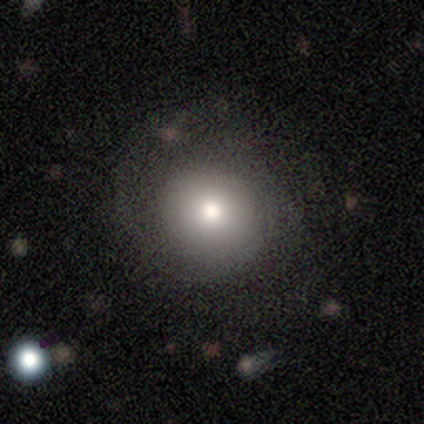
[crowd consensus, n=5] Smooth or featured? smooth (80%)
How rounded? round (100%)
Merging? none (75%)